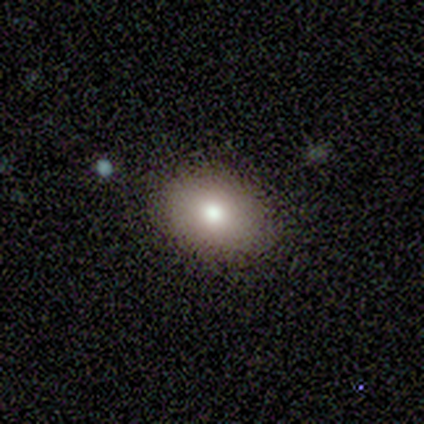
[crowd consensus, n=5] Smooth or featured: smooth — 100%
How rounded: in between — 100%
Merging: none — 100%